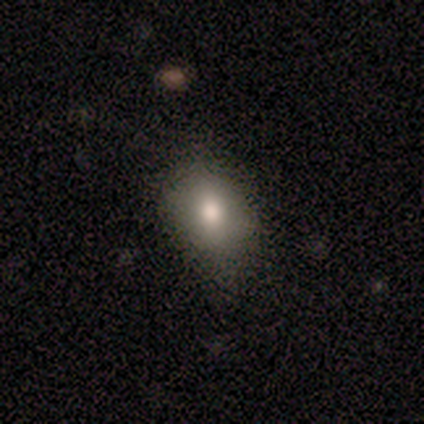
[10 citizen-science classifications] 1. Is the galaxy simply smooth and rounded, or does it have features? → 90% smooth, 10% star or artifact, 0% featured or disk.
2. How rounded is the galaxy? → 56% in between, 44% round, 0% cigar-shaped.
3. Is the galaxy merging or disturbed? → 67% none, 33% minor disturbance, 0% major disturbance, 0% merger.